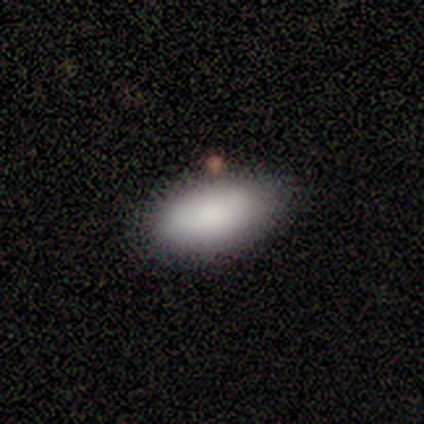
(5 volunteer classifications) smooth-or-featured: smooth: 100% | featured or disk: 0% | star or artifact: 0%
  how-rounded: in between: 100% | round: 0% | cigar-shaped: 0%
  merging: none: 100% | minor disturbance: 0% | major disturbance: 0% | merger: 0%